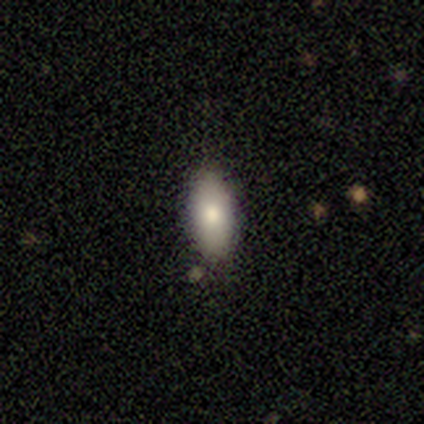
smooth_or_featured: smooth (p=0.80) [alt: featured or disk p=0.20]
how_rounded: in between (p=0.75) [alt: cigar-shaped p=0.25]
merging: none (p=0.80) [alt: merger p=0.20]